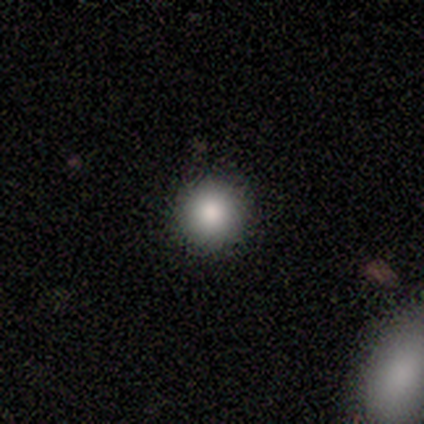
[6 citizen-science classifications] smooth 83%, featured or disk 17%, star or artifact 0%. Down the decision tree: how rounded — round (100%); merging — none (83%).